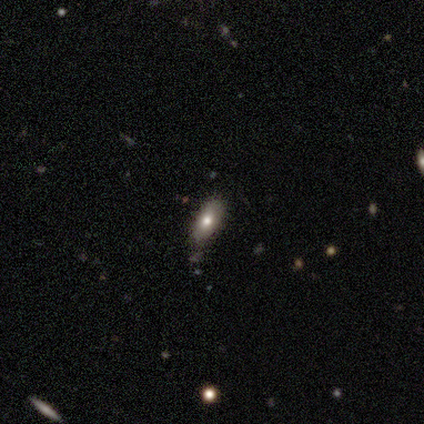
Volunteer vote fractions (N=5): Volunteers were most divided on "smooth or featured" (2-way tie): smooth: 40%, featured or disk: 40%, star or artifact: 20%. More confident: how rounded — in between (100%); merging — none (100%).